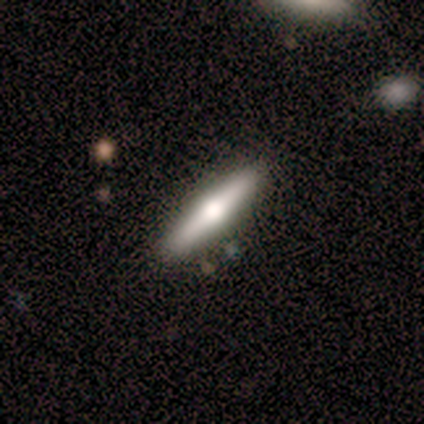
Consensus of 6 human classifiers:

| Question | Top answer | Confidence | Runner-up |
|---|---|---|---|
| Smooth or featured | featured or disk | 67% | smooth (17%) |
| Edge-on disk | yes | 100% | — |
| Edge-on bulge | rounded | 75% | boxy (25%) |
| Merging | none | 100% | — |